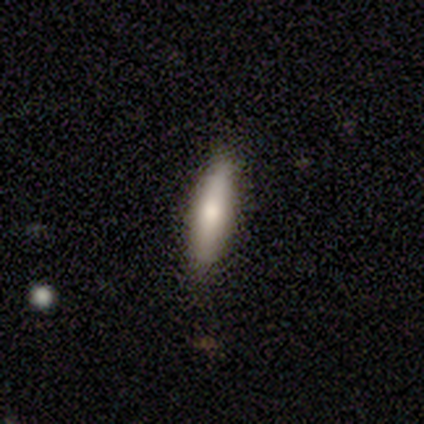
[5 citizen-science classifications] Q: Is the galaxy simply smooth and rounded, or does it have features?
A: smooth — 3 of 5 (60%).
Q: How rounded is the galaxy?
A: in between — 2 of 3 (67%).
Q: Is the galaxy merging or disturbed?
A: none — 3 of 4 (75%).